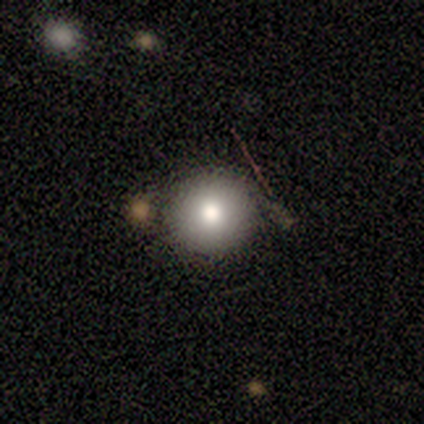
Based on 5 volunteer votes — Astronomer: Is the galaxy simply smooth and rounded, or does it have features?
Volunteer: featured or disk — 60% (runner-up: smooth, 40%).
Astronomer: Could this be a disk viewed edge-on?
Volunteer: no — 100%.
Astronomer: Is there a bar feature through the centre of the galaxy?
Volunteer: no — 100%.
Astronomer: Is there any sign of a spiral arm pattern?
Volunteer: no — 100%.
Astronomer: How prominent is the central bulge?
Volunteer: moderate — 67%.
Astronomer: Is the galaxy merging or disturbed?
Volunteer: none — 80%.